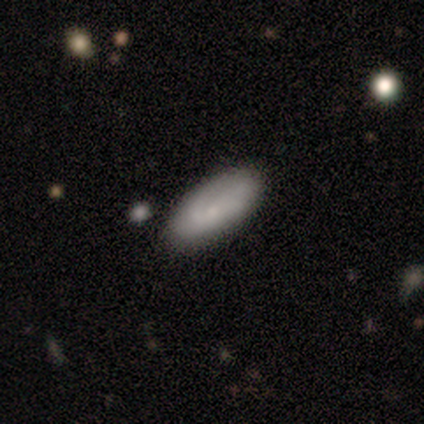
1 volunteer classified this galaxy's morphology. Smooth or featured? 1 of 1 (100%) said featured or disk. Edge-on disk? 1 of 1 (100%) said no. Bar? 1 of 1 (100%) said no. Spiral arms? 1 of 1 (100%) said yes. Spiral winding? 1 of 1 (100%) said loose. Spiral arm count? 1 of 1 (100%) said 2. Bulge size? 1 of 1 (100%) said small. Merging? 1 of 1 (100%) said none.